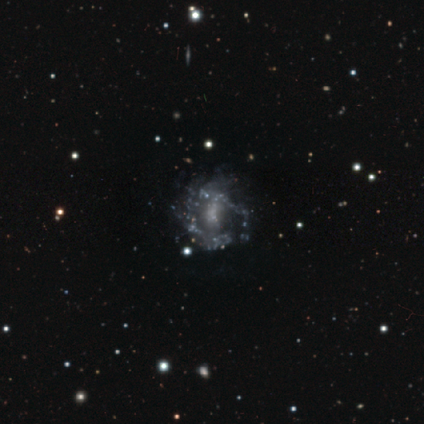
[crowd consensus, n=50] Smooth or featured? featured or disk (84%)
Edge-on disk? no (98%)
Bar? no (78%)
Spiral arms? no (63%)
Bulge size? none (59%)
Merging? none (44%)